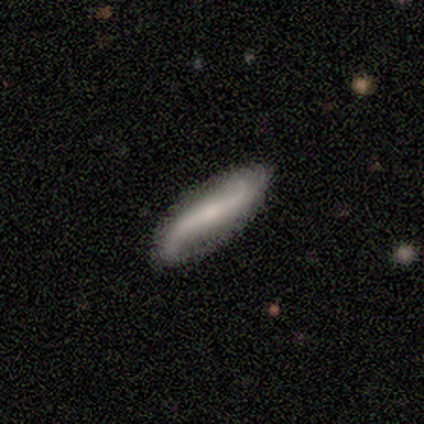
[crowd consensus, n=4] smooth_or_featured: smooth (p=0.50) [tied with: featured or disk p=0.50]
how_rounded: in between (p=0.50) [tied with: cigar-shaped p=0.50]
merging: minor disturbance (p=0.50) [alt: none p=0.25]